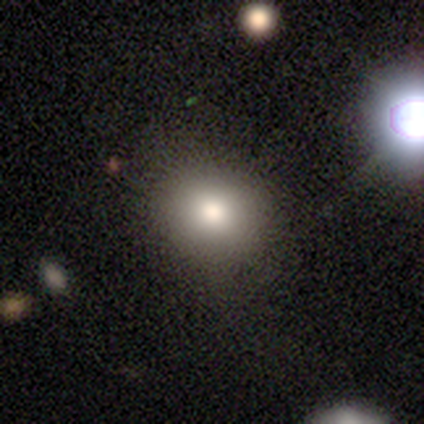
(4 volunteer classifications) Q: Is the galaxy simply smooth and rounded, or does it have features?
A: star or artifact — 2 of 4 (50%).